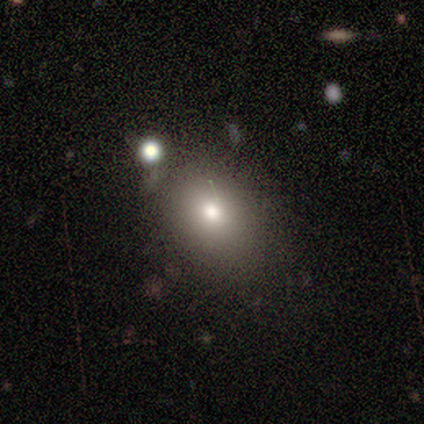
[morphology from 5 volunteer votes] Smooth or featured? 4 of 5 (80%) said smooth. How rounded? 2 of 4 (50%, tied with in between) said round. Merging? 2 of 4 (50%, tied with minor disturbance) said none.